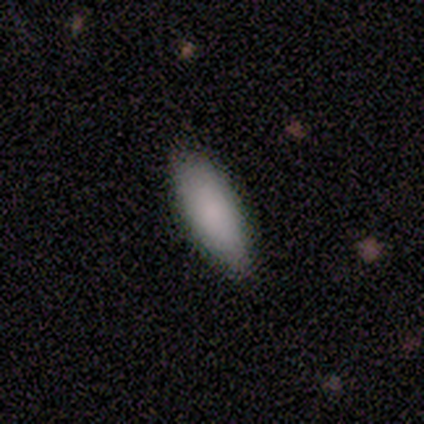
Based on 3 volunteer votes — A smooth galaxy with no disk features (100%) that is in between round and cigar-shaped (67%). Merging: none (100%).